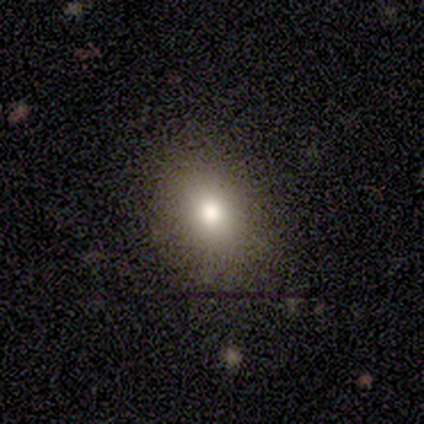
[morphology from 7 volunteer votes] This appears to be a smooth galaxy with no disk features (86%) that is in between round and cigar-shaped (67%). Merging: none (100%).